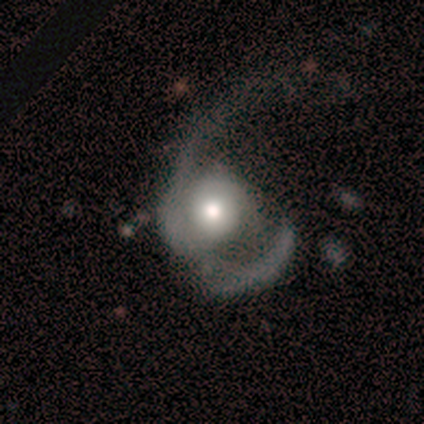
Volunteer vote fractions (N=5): Smooth or featured? 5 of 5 (100%) said featured or disk. Edge-on disk? 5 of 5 (100%) said no. Bar? 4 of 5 (80%) said no. Spiral arms? 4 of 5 (80%) said yes. Spiral winding? 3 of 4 (75%) said loose. Spiral arm count? 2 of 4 (50%) said 2. Bulge size? 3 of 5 (60%) said moderate. Merging? 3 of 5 (60%) said major disturbance.